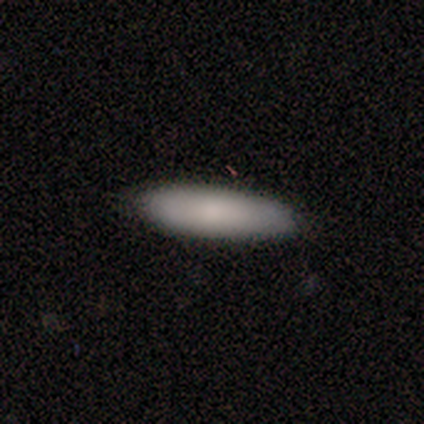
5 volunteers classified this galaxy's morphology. A smooth galaxy with no disk features (80%) that is in between round and cigar-shaped (50%, tied with cigar-shaped). Merging: none (80%).